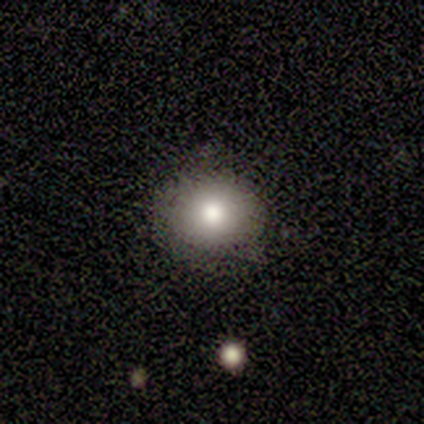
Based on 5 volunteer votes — Smooth or featured? 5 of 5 (100%) said smooth. How rounded? 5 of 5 (100%) said round. Merging? 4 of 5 (80%) said none.